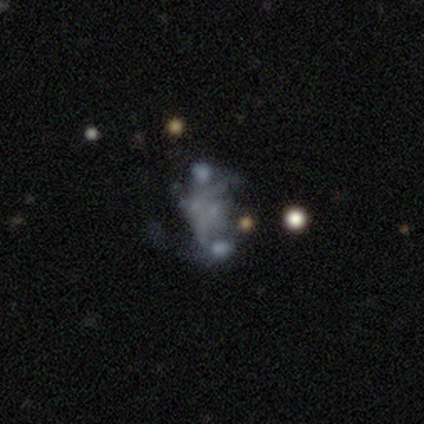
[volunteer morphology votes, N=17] smooth-or-featured: featured or disk: 71% | star or artifact: 18% | smooth: 12%
  disk-edge-on: no: 100% | yes: 0%
    bar: no: 92% | strong: 8% | weak: 0%
    has-spiral-arms: no: 83% | yes: 17%
    bulge-size: none: 67% | small: 25% | moderate: 8% | dominant: 0% | large: 0%
  merging: none: 50% | major disturbance: 29% | merger: 14% | minor disturbance: 7%